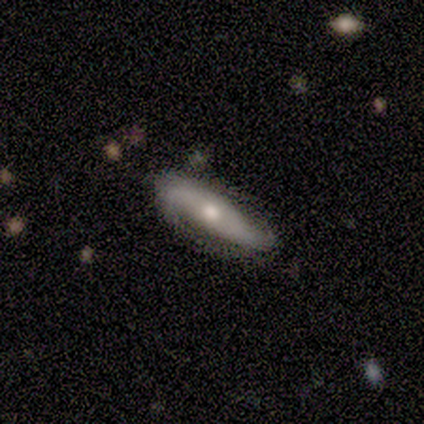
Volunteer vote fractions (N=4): Smooth or featured: smooth — 50% (tied with featured or disk — 50%)
How rounded: cigar-shaped — 100%
Merging: none — 50% (tied with minor disturbance — 50%)